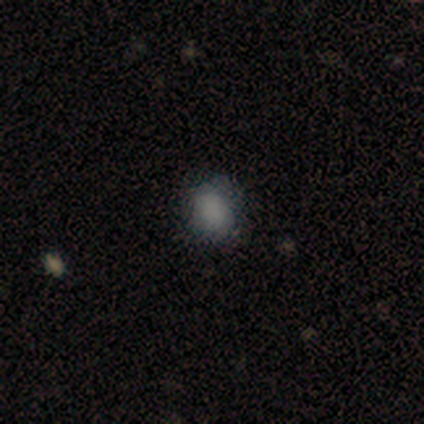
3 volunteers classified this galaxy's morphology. This is clearly a smooth galaxy (100%). How rounded: likely round (67%). Merging: likely none (67%).